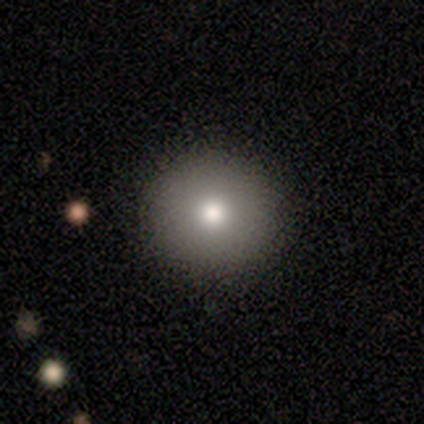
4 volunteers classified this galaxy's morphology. smooth 75%, featured or disk 25%, star or artifact 0%. Down the decision tree: how rounded — round (100%); merging — none (100%).